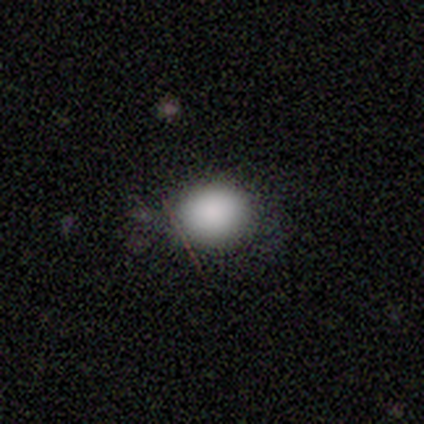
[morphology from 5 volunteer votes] type=smooth (80%); roundness=round (50%, tied with in between); merging=none (75%).